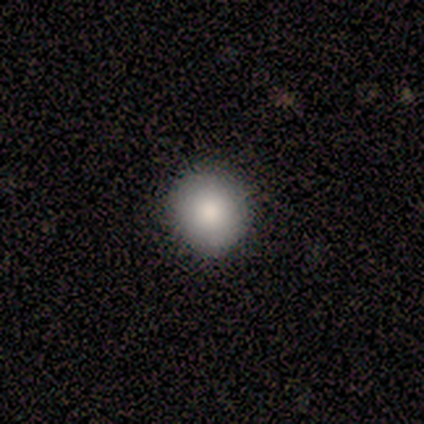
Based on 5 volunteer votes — Smooth or featured? smooth (60%)
How rounded? round (67%)
Merging? none (100%)